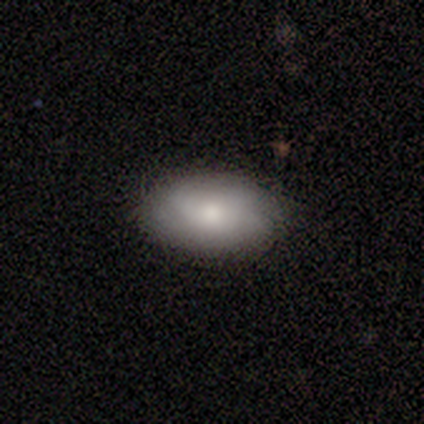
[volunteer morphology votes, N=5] Smooth or featured: smooth — 60% (featured or disk — 40%)
How rounded: in between — 100%
Merging: none — 80% (minor disturbance — 20%)